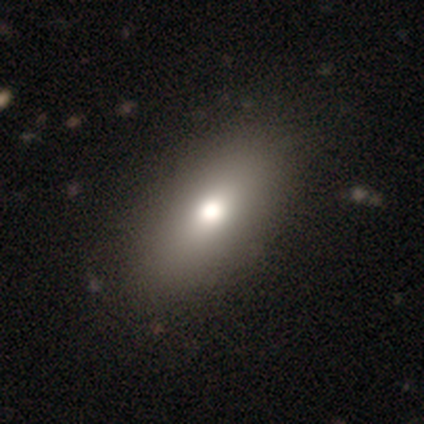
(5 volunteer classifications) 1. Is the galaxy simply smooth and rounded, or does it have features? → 80% smooth, 20% star or artifact, 0% featured or disk.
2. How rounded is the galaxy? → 75% in between, 25% cigar-shaped, 0% round.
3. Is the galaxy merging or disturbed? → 75% none, 25% minor disturbance, 0% major disturbance, 0% merger.